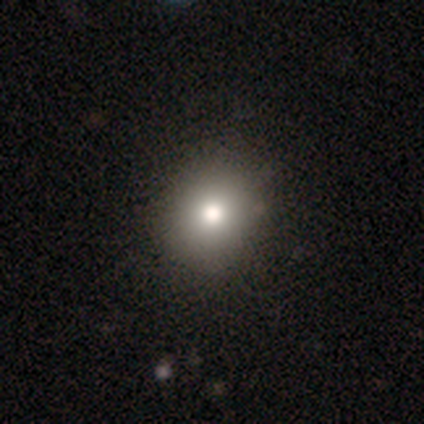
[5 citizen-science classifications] A smooth galaxy with no disk features (60%) that is in between round and cigar-shaped (67%). Merging: none (75%).